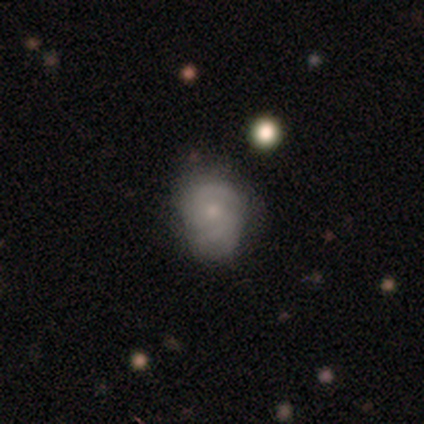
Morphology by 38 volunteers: A featured or disk galaxy (47%) with no bar (67%), 2 (62%) tight (56%) spiral arms (89%) and a small central bulge (67%). Merging: none (69%).